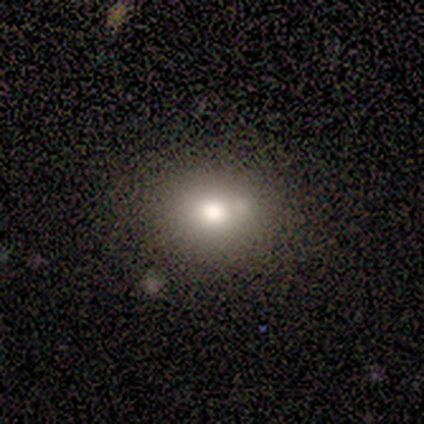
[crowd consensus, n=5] smooth 80%, featured or disk 20%, star or artifact 0%. Down the decision tree: how rounded — round (75%); merging — none (80%).